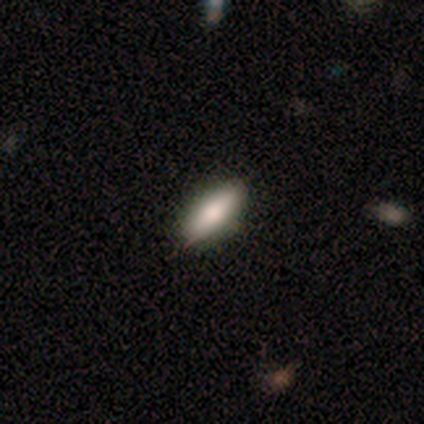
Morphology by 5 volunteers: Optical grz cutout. It shows a smooth galaxy with no disk features (100%) that is in between round and cigar-shaped (100%). Merging: none (80%).